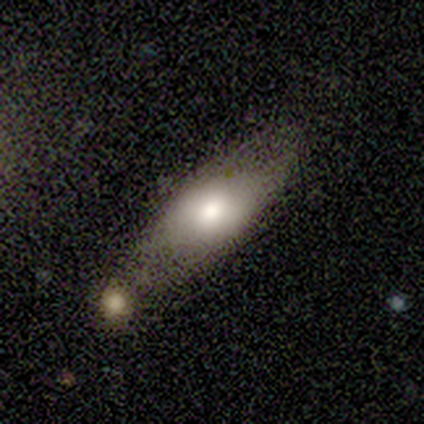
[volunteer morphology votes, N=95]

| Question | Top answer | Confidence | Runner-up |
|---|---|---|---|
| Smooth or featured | smooth | 62% | featured or disk (31%) |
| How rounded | in between | 80% | cigar-shaped (14%) |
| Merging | none | 64% | minor disturbance (20%) |